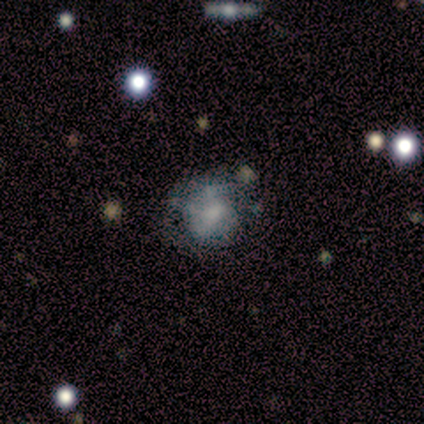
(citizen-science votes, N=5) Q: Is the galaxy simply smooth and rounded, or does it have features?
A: featured or disk — 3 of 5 (60%).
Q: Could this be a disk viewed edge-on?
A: no — 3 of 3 (100%).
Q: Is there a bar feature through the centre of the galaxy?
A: no — 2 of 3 (67%).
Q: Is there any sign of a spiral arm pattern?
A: yes — 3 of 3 (100%).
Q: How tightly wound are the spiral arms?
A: tight — 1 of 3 (33%, tied with medium and loose).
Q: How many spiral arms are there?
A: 2 — 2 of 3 (67%).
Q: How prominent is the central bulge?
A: moderate — 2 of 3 (67%).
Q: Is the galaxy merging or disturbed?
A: minor disturbance — 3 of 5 (60%).